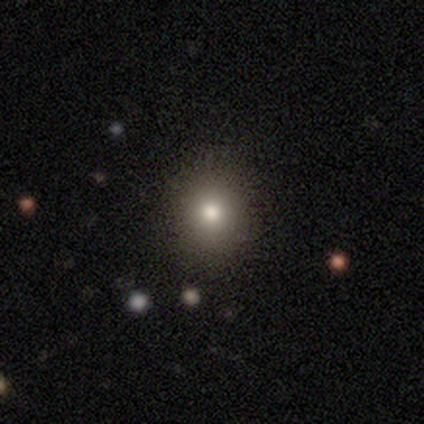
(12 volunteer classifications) Morphology: type=smooth (67%); roundness=round (100%); merging=none (92%).